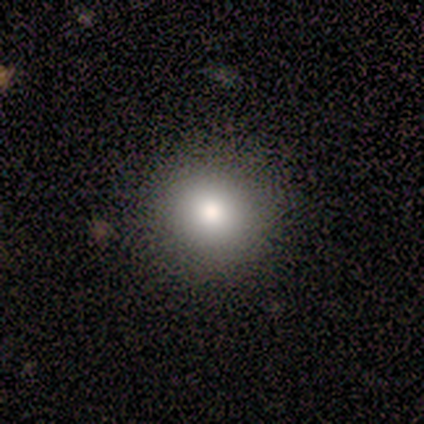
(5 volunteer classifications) This is clearly a smooth galaxy (100%). How rounded: clearly round (100%). Merging: clearly none (100%).